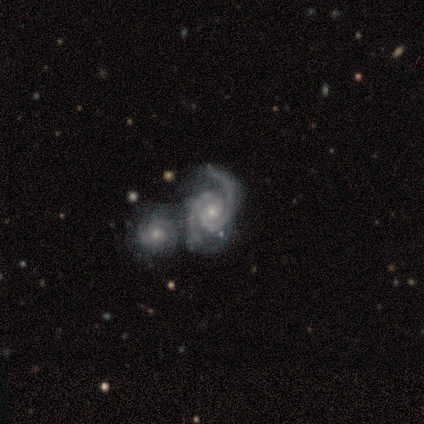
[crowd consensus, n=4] Smooth or featured?
  - featured or disk: 100% *
  - smooth: 0%
  - star or artifact: 0%
Edge-on disk?
  - no: 100% *
  - yes: 0%
Bar?
  - no: 75% *
  - strong: 25%
  - weak: 0%
Spiral arms?
  - yes: 100% *
  - no: 0%
Spiral winding?
  - tight: 75% *
  - medium: 25%
  - loose: 0%
Spiral arm count?
  - 2: 100% *
  - 1: 0%
  - 3: 0%
  - 4: 0%
  - more than 4: 0%
  - can't tell: 0%
Bulge size?
  - small: 75% *
  - moderate: 25%
  - dominant: 0%
  - large: 0%
  - none: 0%
Merging?
  - merger: 50% *
  - none: 25%
  - major disturbance: 25%
  - minor disturbance: 0%